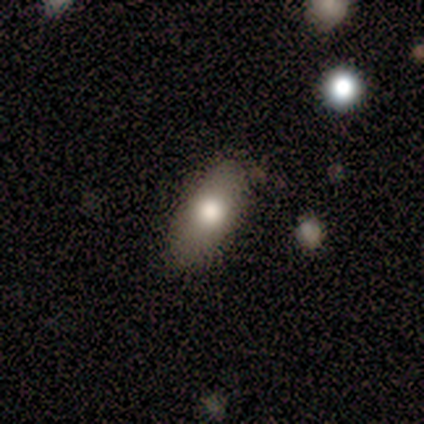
Q: Smooth or featured?
A: smooth (80%); runner-up: star or artifact (20%)
Q: How rounded?
A: in between (100%)
Q: Merging?
A: minor disturbance (50%); runner-up: none (25%)